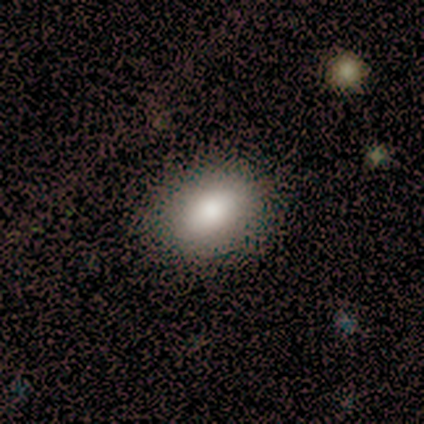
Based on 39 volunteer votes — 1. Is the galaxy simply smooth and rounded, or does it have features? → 85% smooth, 13% featured or disk, 3% star or artifact.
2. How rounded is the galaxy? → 91% in between, 9% round, 0% cigar-shaped.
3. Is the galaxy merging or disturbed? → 76% none, 3% merger, 0% minor disturbance, 0% major disturbance.